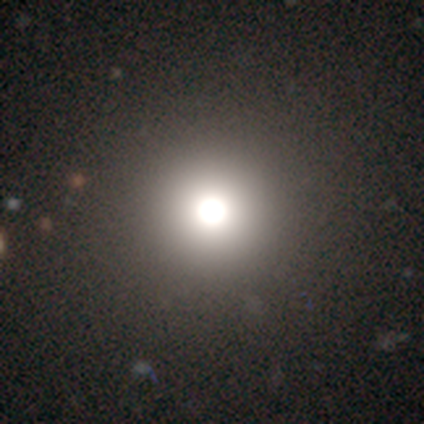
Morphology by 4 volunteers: A featured or disk galaxy (50%) with no bar (100%), no spiral arms (100%) and a large central bulge (100%). Merging: none (67%).